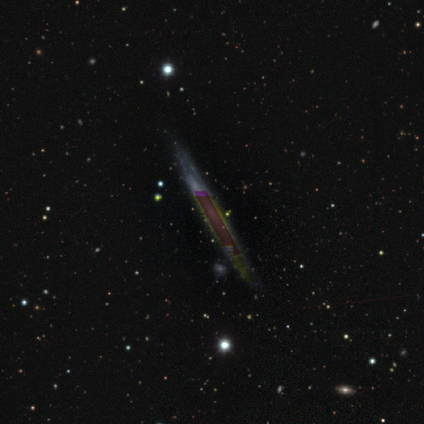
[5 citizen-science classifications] Smooth or featured? star or artifact (80%)